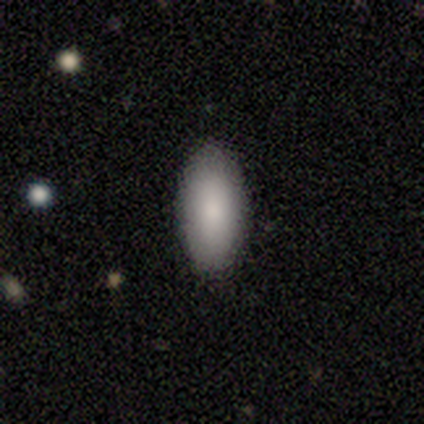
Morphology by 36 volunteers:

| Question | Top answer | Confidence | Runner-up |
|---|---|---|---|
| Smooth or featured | smooth | 83% | featured or disk (11%) |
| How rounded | in between | 97% | cigar-shaped (3%) |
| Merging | none | 94% | minor disturbance (3%) |